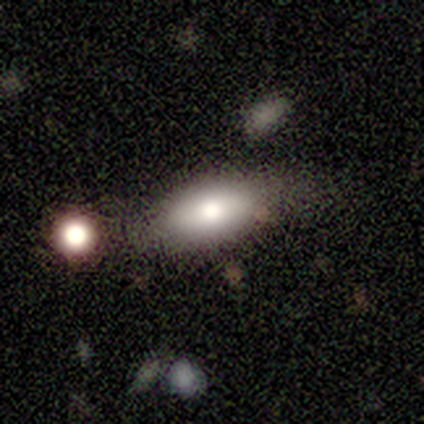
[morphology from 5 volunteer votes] Smooth or featured?
  - smooth: 80% *
  - featured or disk: 20%
  - star or artifact: 0%
How rounded?
  - in between: 100% *
  - round: 0%
  - cigar-shaped: 0%
Merging?
  - none: 100% *
  - minor disturbance: 0%
  - major disturbance: 0%
  - merger: 0%